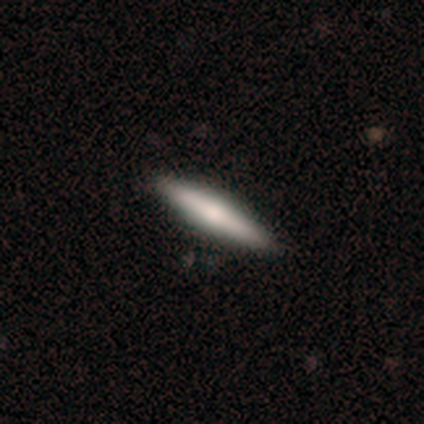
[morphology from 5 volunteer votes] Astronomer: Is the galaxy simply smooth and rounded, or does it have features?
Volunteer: featured or disk — 80%.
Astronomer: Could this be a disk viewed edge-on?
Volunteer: yes — 100%.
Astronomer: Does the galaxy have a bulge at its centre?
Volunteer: rounded — 100%.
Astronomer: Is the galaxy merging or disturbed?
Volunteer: none — 80%.